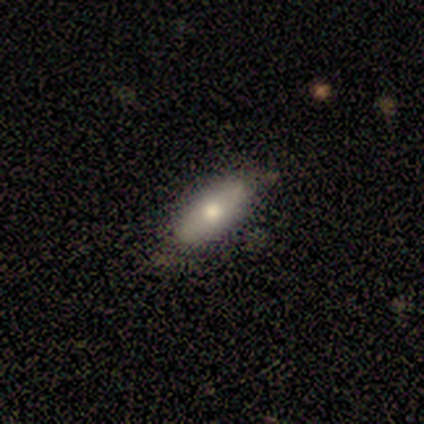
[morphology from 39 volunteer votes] smooth_or_featured: smooth (p=0.56) [alt: featured or disk p=0.41]
how_rounded: in between (p=0.59) [alt: cigar-shaped p=0.32]
merging: none (p=0.84) [alt: minor disturbance p=0.11]